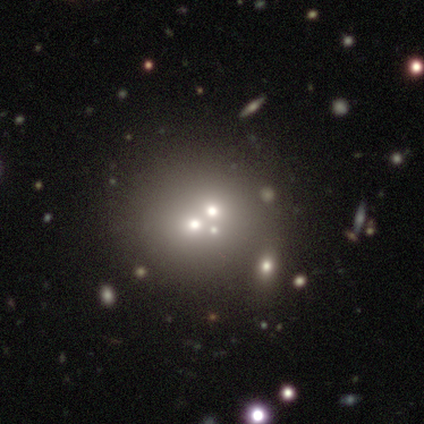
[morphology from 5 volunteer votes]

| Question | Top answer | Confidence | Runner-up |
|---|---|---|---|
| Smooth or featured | smooth | 40% | tied: featured or disk (40%) |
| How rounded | round | 100% | — |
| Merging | merger | 75% | none (25%) |